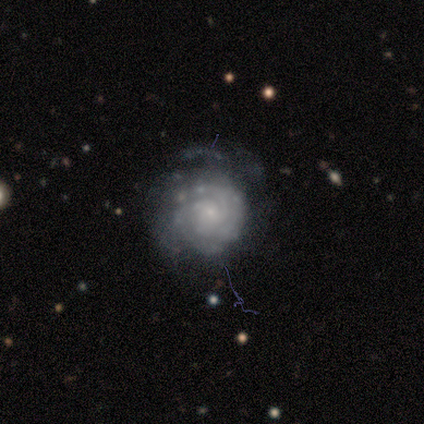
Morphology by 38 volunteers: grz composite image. It shows a featured or disk galaxy (87%) with no bar (85%), tight (63%) spiral arms (82%) and a small central bulge (67%). Merging: none (53%).